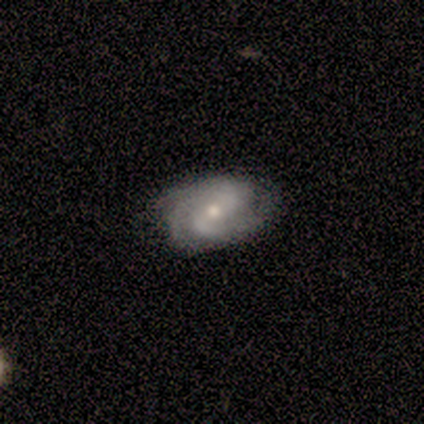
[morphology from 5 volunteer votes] type=featured or disk (100%); edge-on=no (100%); bar=weak (60%); spiral arms=yes (100%); winding=medium (60%); arm count=2 (60%); bulge=small (80%); merging=none (60%).